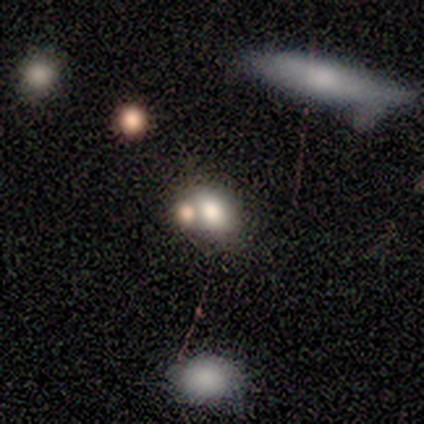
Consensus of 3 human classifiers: Smooth or featured?
  - smooth: 67% *
  - featured or disk: 33%
  - star or artifact: 0%
How rounded?
  - in between: 100% *
  - round: 0%
  - cigar-shaped: 0%
Merging?
  - none: 100% *
  - minor disturbance: 0%
  - major disturbance: 0%
  - merger: 0%